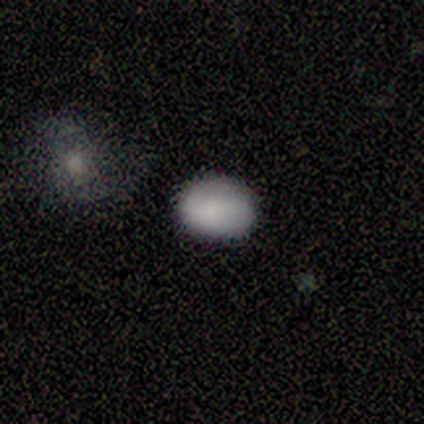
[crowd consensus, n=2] Smooth or featured? 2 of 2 (100%) said smooth. How rounded? 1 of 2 (50%, tied with in between) said round. Merging? 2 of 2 (100%) said none.